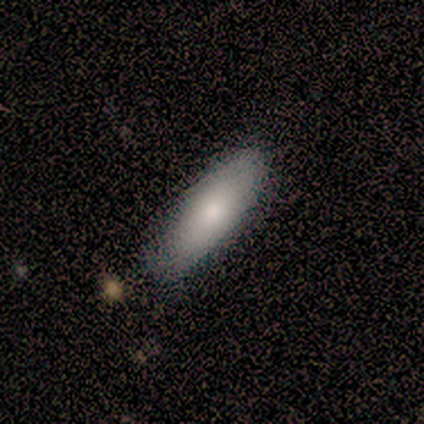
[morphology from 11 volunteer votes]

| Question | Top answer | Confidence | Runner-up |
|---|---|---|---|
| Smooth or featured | smooth | 73% | featured or disk (27%) |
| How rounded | in between | 75% | cigar-shaped (25%) |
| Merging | none | 64% | minor disturbance (27%) |